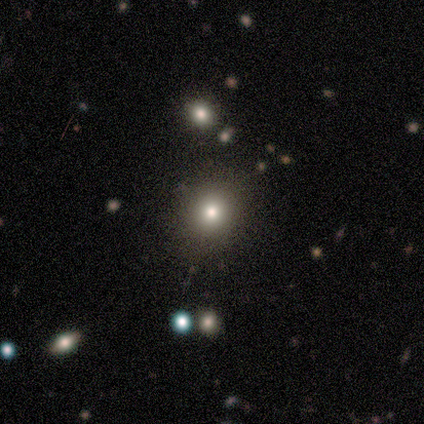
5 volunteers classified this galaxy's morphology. Smooth or featured? smooth (80%)
How rounded? round (75%)
Merging? none (80%)